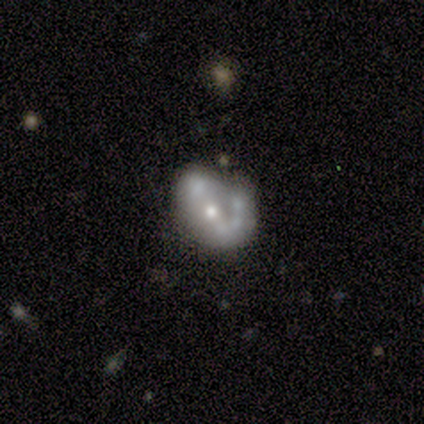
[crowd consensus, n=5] This is clearly a featured or disk galaxy (100%). It is clearly not viewed edge-on (100%). Bar: clearly no (80%). Spiral arm pattern: likely yes (60%). Spiral arm count: clearly 2 (100%). Spiral winding: likely loose (67%). Central bulge: clearly moderate (80%). Merging: likely minor disturbance (60%).